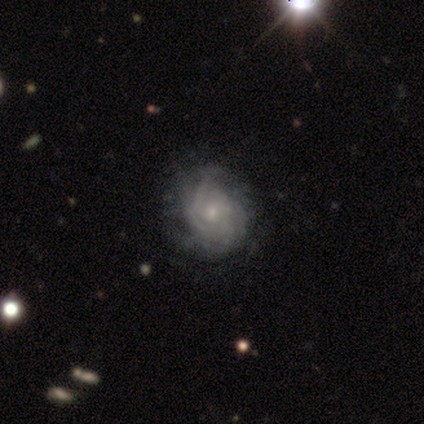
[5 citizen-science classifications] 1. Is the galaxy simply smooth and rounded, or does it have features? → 100% featured or disk, 0% smooth, 0% star or artifact.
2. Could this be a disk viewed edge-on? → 100% no, 0% yes.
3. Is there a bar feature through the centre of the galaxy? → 100% no, 0% strong, 0% weak.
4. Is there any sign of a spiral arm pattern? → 100% yes, 0% no.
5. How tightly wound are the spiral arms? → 80% medium, 20% tight, 0% loose.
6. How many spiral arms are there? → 40% can't tell, 20% 2, 20% 4, 20% more than 4, 0% 1, 0% 3.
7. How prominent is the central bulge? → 80% small, 20% none, 0% dominant, 0% large, 0% moderate.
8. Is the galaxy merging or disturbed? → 40% none (tied), 40% minor disturbance (tied), 20% merger, 0% major disturbance.